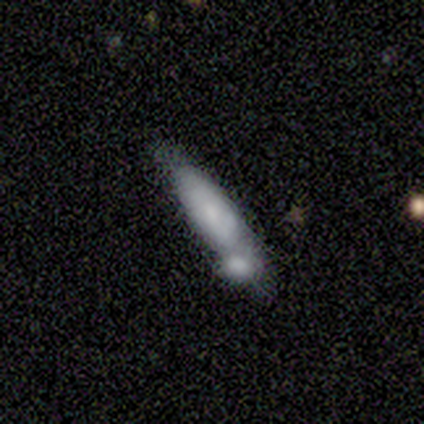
Q: Smooth or featured?
A: smooth (40%); tied with: featured or disk (40%)
Q: How rounded?
A: in between (50%); tied with: cigar-shaped (50%)
Q: Merging?
A: merger (75%); runner-up: major disturbance (25%)